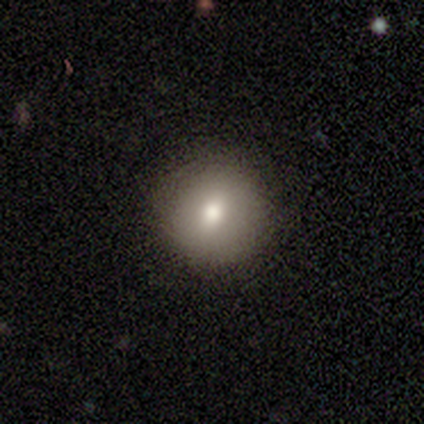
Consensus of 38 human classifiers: Smooth or featured: smooth — 66% (featured or disk — 21%)
How rounded: round — 96% (in between — 4%)
Merging: none — 91% (minor disturbance — 6%)